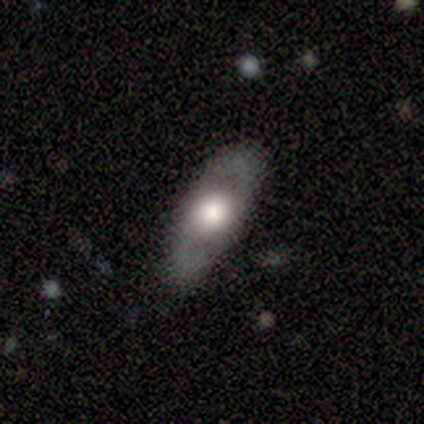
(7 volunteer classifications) A featured or disk galaxy (71%) with no bar (100%), 2 (100%) medium (67%) spiral arms (60%) and a large central bulge (60%). Merging: none (100%).